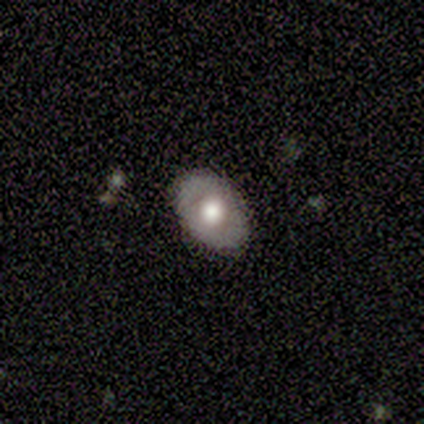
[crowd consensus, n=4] This is possibly a smooth galaxy (50%, tied with featured or disk). How rounded: clearly in between (100%). Merging: clearly none (100%).